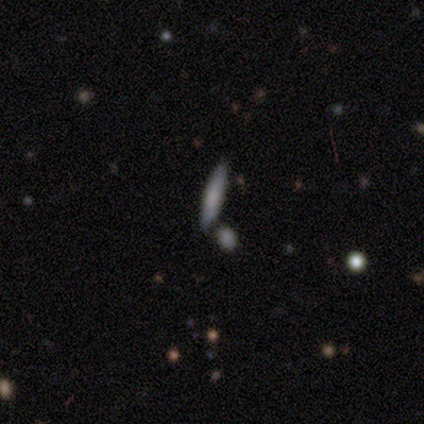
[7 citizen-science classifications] Q: Smooth or featured?
A: smooth (57%); runner-up: featured or disk (43%)
Q: How rounded?
A: cigar-shaped (75%); runner-up: in between (25%)
Q: Merging?
A: merger (71%); runner-up: none (29%)